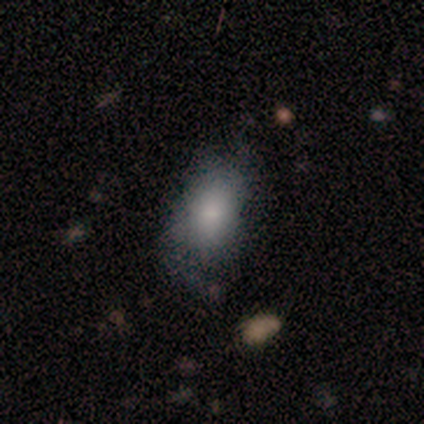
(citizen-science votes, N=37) smooth-or-featured: smooth: 65% | featured or disk: 27% | star or artifact: 8%
  how-rounded: in between: 96% | round: 4% | cigar-shaped: 0%
  merging: none: 44% | minor disturbance: 35% | major disturbance: 21% | merger: 0%